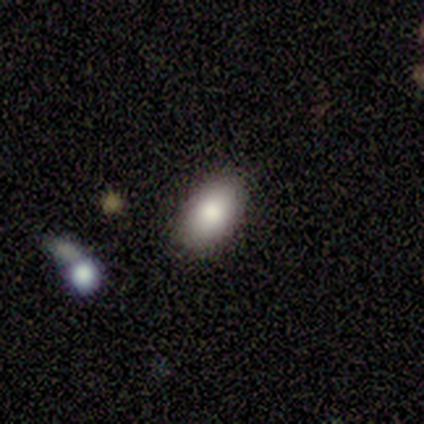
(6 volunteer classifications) Smooth or featured?
  - smooth: 100% *
  - featured or disk: 0%
  - star or artifact: 0%
How rounded?
  - in between: 100% *
  - round: 0%
  - cigar-shaped: 0%
Merging?
  - none: 67% *
  - minor disturbance: 17%
  - major disturbance: 17%
  - merger: 0%